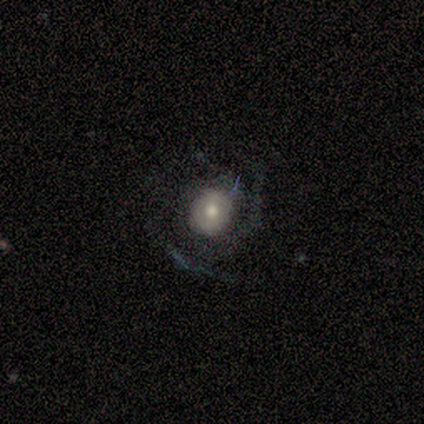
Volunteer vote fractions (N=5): Smooth or featured?
  - featured or disk: 60% *
  - smooth: 40%
  - star or artifact: 0%
Edge-on disk?
  - no: 100% *
  - yes: 0%
Bar?
  - no: 67% *
  - weak: 33%
  - strong: 0%
Spiral arms?
  - yes: 100% *
  - no: 0%
Spiral winding?
  - tight: 67% *
  - medium: 33%
  - loose: 0%
Spiral arm count?
  - 3: 67% *
  - 2: 33%
  - 1: 0%
  - 4: 0%
  - more than 4: 0%
  - can't tell: 0%
Bulge size?
  - moderate: 67% *
  - small: 33%
  - dominant: 0%
  - large: 0%
  - none: 0%
Merging?
  - none: 100% *
  - minor disturbance: 0%
  - major disturbance: 0%
  - merger: 0%